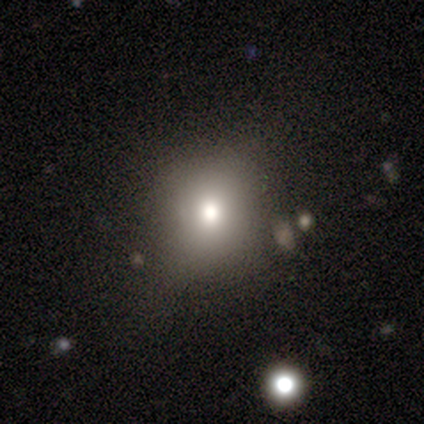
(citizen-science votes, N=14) Smooth or featured? smooth (50%)
How rounded? round (86%)
Merging? none (70%)